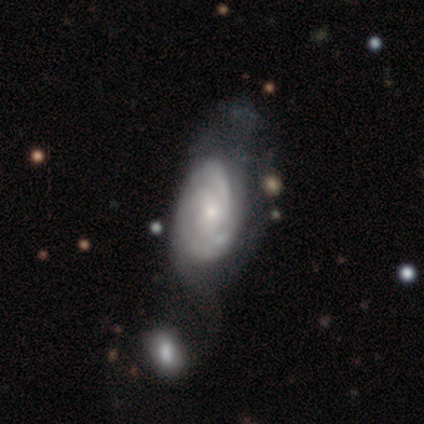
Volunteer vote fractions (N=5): Smooth or featured: featured or disk — 80% (smooth — 20%)
Edge-on disk: no — 100%
Bar: no — 75% (weak — 25%)
Spiral arms: yes — 100%
Spiral winding: medium — 100%
Spiral arm count: 2 — 50% (tied with 3 — 50%)
Bulge size: moderate — 50% (tied with small — 50%)
Merging: none — 40% (minor disturbance — 20%)